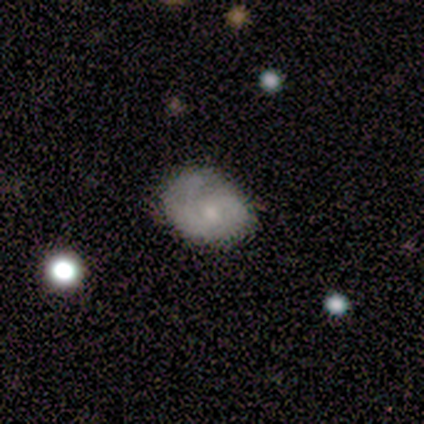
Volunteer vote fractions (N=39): Volunteers were most divided on "spiral winding": tight: 50%, medium: 39%, loose: 11%. More confident: edge-on disk — no (95%); spiral arms — yes (86%); bulge size — small (76%); bar — no (67%); merging — none (59%); smooth or featured — featured or disk (56%); spiral arm count — 2 (50%).